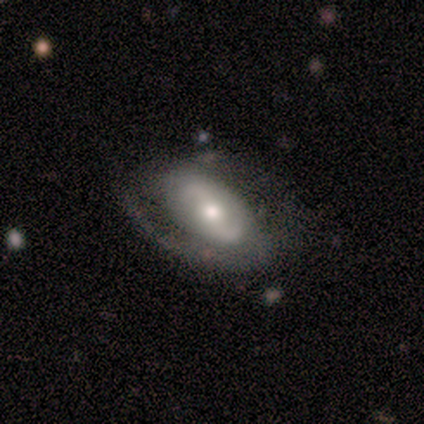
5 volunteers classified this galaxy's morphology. Volunteers were most divided on "spiral winding" (2-way tie): tight: 50%, medium: 50%, loose: 0%; "spiral arm count" (2-way tie): 1: 50%, 2: 50%, 3: 0%, 4: 0%, more than 4: 0%, can't tell: 0%. More confident: smooth or featured — featured or disk (80%); edge-on disk — no (75%); bar — no (67%); spiral arms — yes (67%); bulge size — moderate (67%); merging — none (60%).